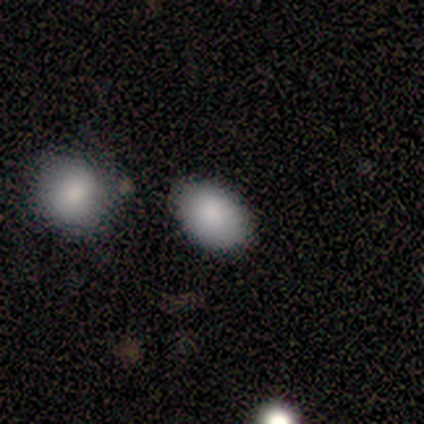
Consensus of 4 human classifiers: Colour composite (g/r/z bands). It shows a smooth galaxy with no disk features (100%) that is in between round and cigar-shaped (100%). Merging: none (50%, tied with minor disturbance).